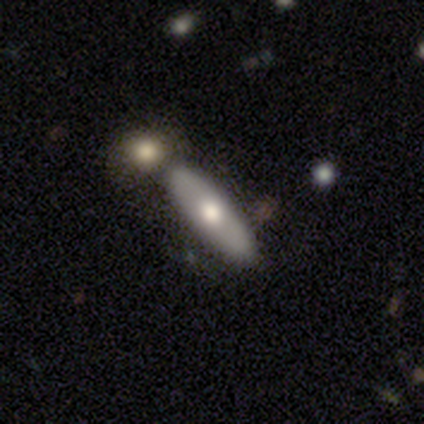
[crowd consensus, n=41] Smooth or featured? 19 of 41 (46%) said smooth. How rounded? 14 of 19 (74%) said cigar-shaped. Merging? 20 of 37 (54%) said none.